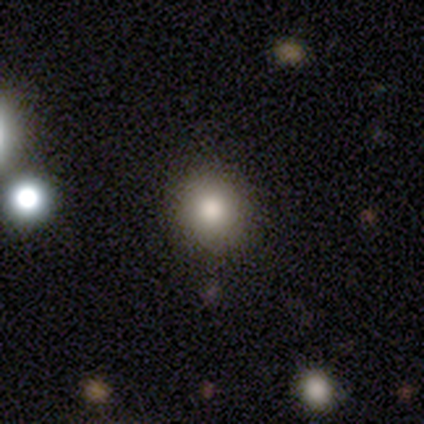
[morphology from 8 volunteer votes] smooth 88%, star or artifact 12%, featured or disk 0%. Down the decision tree: how rounded — round (86%); merging — none (71%).